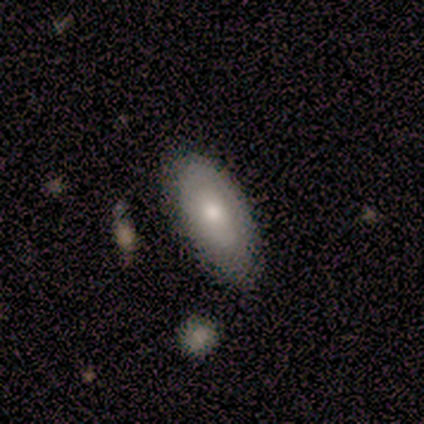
Volunteers were most divided on "bulge size" (2-way tie): moderate: 50%, small: 50%, dominant: 0%, large: 0%, none: 0%. More confident: bar — no (100%); spiral arms — no (100%); merging — none (75%); edge-on disk — no (67%); smooth or featured — featured or disk (60%).